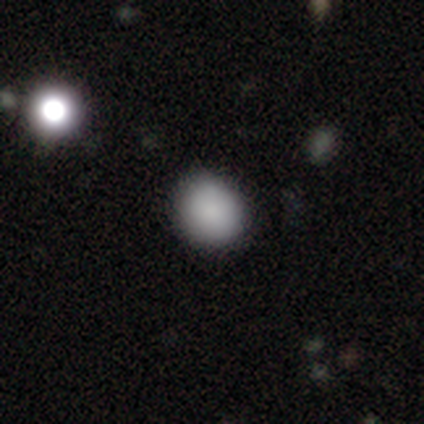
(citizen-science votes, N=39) smooth_or_featured: smooth (p=0.85) [alt: featured or disk p=0.10]
how_rounded: round (p=0.67) [alt: in between p=0.33]
merging: none (p=0.78) [alt: minor disturbance p=0.22]